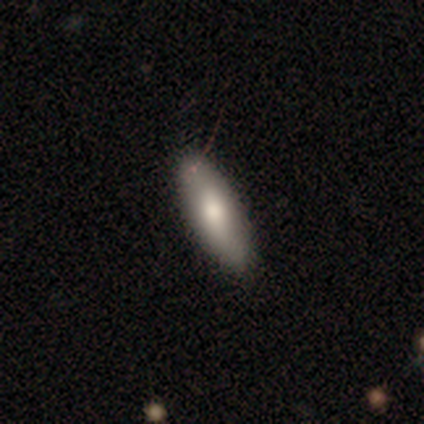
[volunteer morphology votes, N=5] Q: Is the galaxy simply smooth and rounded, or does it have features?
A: smooth — 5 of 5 (100%).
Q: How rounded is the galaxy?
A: cigar-shaped — 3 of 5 (60%).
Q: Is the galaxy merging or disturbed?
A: none — 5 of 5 (100%).